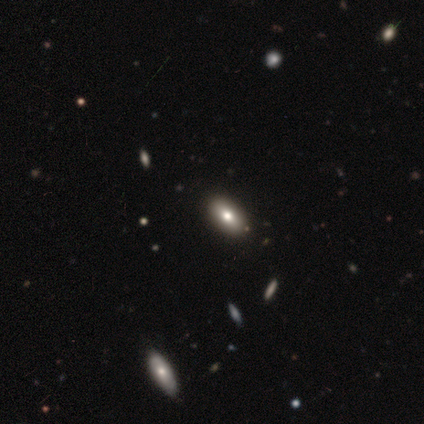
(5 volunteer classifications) Smooth or featured?
  - star or artifact: 60% *
  - smooth: 40%
  - featured or disk: 0%